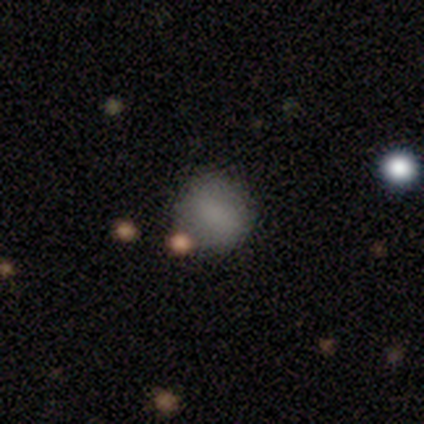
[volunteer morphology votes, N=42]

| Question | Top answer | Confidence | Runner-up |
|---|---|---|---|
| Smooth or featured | smooth | 81% | featured or disk (10%) |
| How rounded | round | 76% | in between (24%) |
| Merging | none | 74% | minor disturbance (13%) |